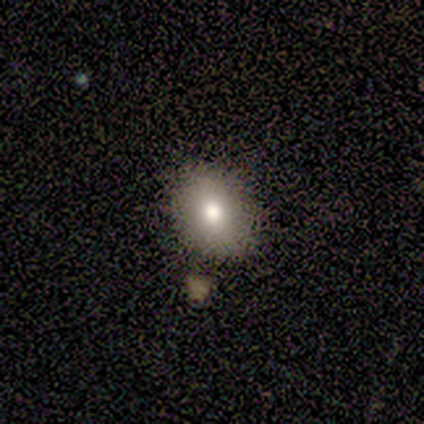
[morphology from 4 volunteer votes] Volunteers were most divided on "how rounded" (2-way tie): round: 50%, in between: 50%, cigar-shaped: 0%. More confident: smooth or featured — smooth (100%); merging — none (50%).